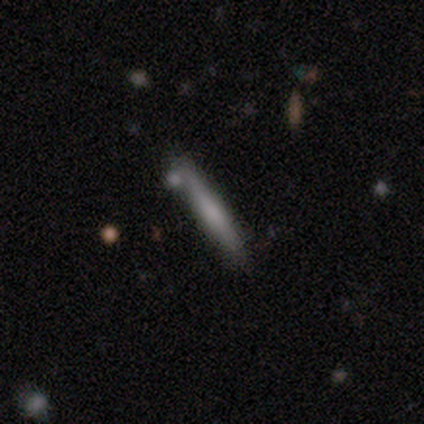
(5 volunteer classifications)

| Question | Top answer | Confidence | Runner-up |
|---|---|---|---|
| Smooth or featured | smooth | 80% | featured or disk (20%) |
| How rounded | cigar-shaped | 100% | — |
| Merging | none | 100% | — |